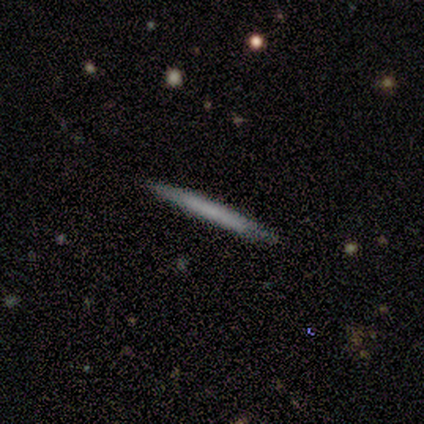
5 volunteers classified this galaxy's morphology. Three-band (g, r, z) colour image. It shows a smooth galaxy with no disk features (80%) that is cigar-shaped (100%). Merging: none (100%).